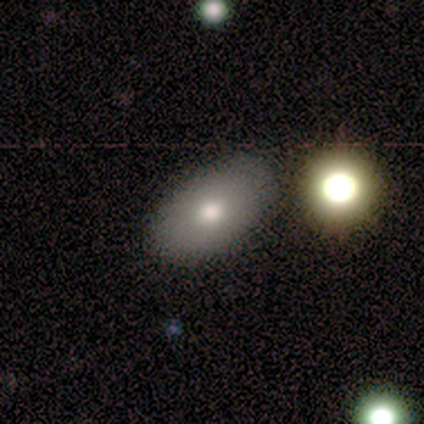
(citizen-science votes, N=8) Overall: smooth (75%). How rounded: in between (100%). Merging: none (100%).